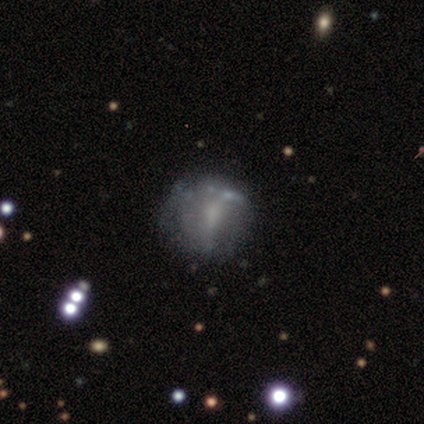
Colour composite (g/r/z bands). It shows a smooth galaxy with no disk features (40%, tied with featured or disk) that is round (100%). Merging: none (75%).